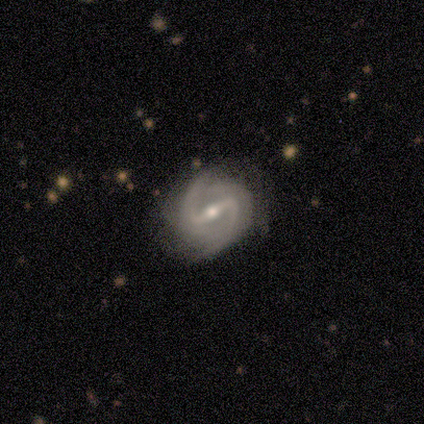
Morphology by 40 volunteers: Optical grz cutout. It shows a featured or disk galaxy (100%) with a strong bar (87%), 2 (79%) loose (36%) spiral arms (100%) and a moderate central bulge (72%). Merging: none (52%).